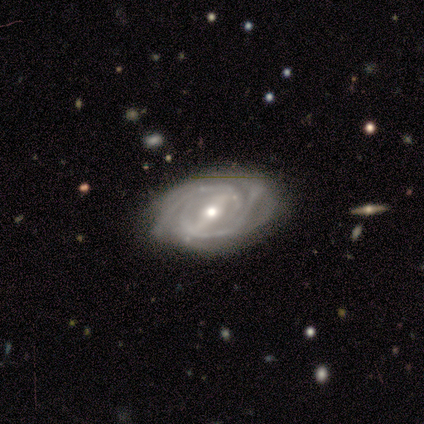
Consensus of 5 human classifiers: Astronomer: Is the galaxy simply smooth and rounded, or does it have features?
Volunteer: featured or disk — 100%.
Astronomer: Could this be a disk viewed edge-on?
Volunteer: no — 100%.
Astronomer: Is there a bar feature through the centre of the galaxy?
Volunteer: strong — 80%.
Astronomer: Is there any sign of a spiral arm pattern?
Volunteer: yes — 100%.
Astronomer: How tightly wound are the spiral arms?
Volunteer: tight — 100%.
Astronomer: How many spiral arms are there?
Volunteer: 2 — 60%.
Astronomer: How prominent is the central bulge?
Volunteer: moderate — 60% (runner-up: small, 40%).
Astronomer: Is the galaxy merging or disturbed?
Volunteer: none — 100%.